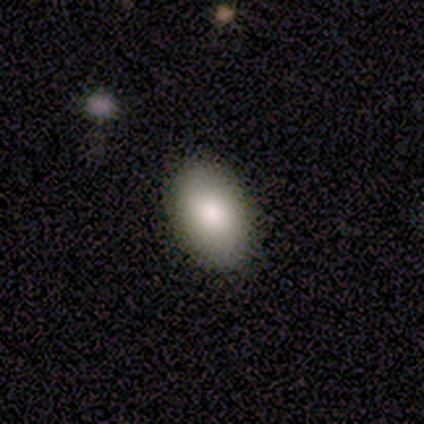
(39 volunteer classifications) This is clearly a smooth galaxy (87%). How rounded: clearly in between (91%). Merging: clearly none (84%).